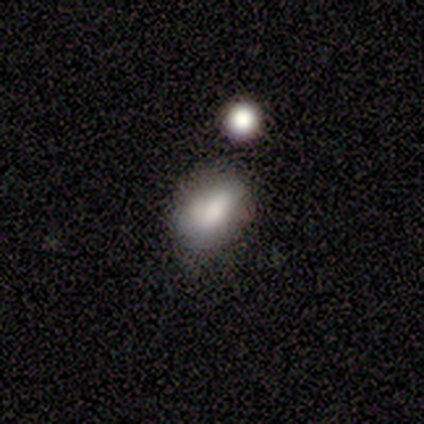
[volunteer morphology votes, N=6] This appears to be a smooth galaxy with no disk features (67%) that is in between round and cigar-shaped (75%). Merging: none (67%).